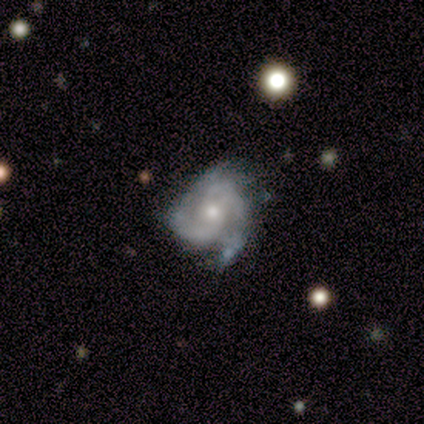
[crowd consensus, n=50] Morphology: type=featured or disk (90%); edge-on=no (98%); bar=no (77%); spiral arms=yes (93%); winding=tight (46%); arm count=2 (49%); bulge=moderate (59%); merging=none (53%).